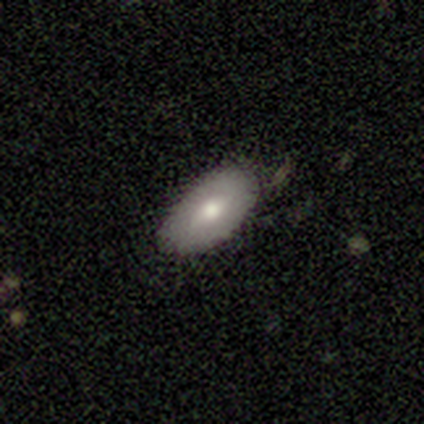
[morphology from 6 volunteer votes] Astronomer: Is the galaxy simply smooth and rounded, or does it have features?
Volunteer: smooth — 67%.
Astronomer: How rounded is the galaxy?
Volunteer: in between — 100%.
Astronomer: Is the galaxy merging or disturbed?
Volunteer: none — 67%.